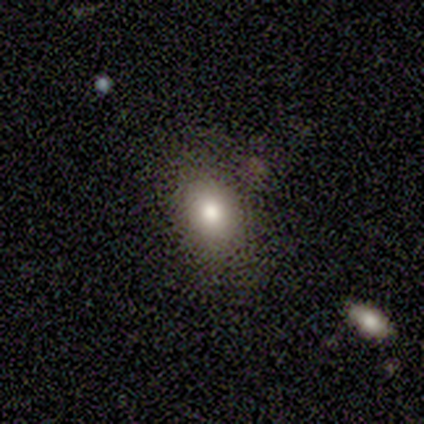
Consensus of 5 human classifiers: Smooth or featured: smooth — 60% (featured or disk — 20%)
How rounded: in between — 67% (round — 33%)
Merging: none — 75% (minor disturbance — 25%)